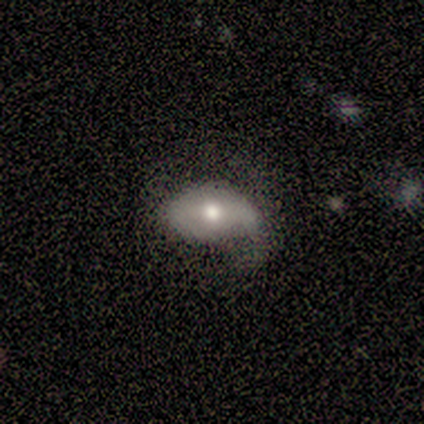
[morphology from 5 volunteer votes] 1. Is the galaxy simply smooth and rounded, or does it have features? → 60% featured or disk, 40% smooth, 0% star or artifact.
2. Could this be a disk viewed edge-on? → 100% no, 0% yes.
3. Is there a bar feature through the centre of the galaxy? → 67% strong, 33% no, 0% weak.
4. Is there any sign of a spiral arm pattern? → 67% yes, 33% no.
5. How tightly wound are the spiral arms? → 50% tight (tied), 50% loose (tied), 0% medium.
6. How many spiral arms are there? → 50% 1 (tied), 50% 2 (tied), 0% 3, 0% 4, 0% more than 4, 0% can't tell.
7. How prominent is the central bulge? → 67% moderate, 33% large, 0% dominant, 0% small, 0% none.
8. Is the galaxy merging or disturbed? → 60% none, 40% minor disturbance, 0% major disturbance, 0% merger.